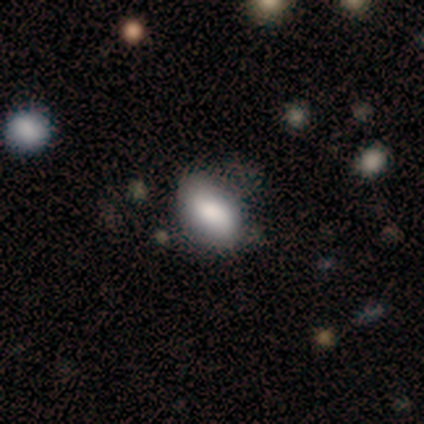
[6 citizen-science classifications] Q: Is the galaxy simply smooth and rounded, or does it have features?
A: smooth — 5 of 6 (83%).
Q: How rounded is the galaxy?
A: in between — 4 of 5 (80%).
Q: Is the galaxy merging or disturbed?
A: none — 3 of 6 (50%, tied with minor disturbance).